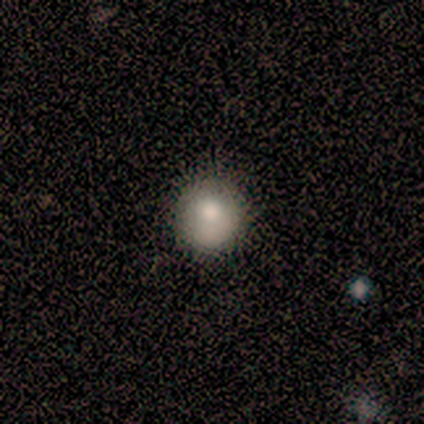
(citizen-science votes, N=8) A smooth galaxy with no disk features (75%) that is round (83%).

Vote fractions:
- Smooth or featured? smooth: 75% / star or artifact: 25% / featured or disk: 0%
- How rounded? round: 83% / in between: 17% / cigar-shaped: 0%
- Merging? none: 83% / minor disturbance: 17% / major disturbance: 0% / merger: 0%